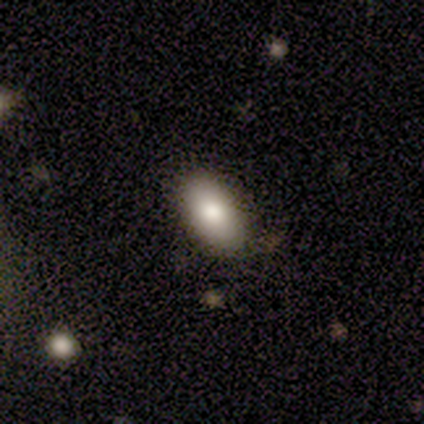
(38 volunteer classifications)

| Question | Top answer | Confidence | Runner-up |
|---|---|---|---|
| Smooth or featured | smooth | 68% | featured or disk (21%) |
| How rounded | in between | 88% | round (12%) |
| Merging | none | 94% | minor disturbance (6%) |